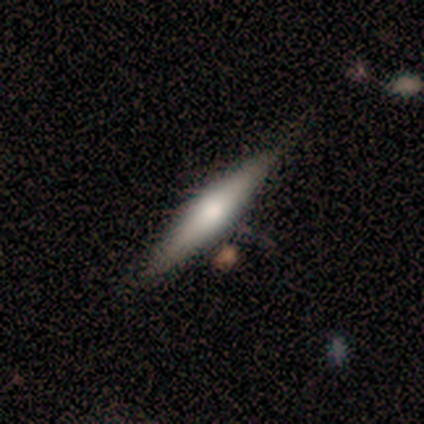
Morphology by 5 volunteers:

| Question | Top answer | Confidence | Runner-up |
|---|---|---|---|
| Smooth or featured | smooth | 60% | featured or disk (40%) |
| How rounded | cigar-shaped | 100% | — |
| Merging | none | 100% | — |